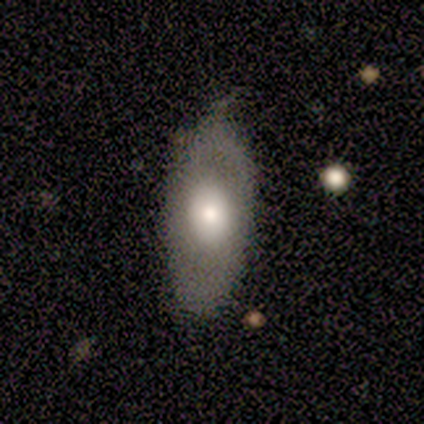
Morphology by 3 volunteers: type=featured or disk (100%); edge-on=no (67%); bar=no (100%); spiral arms=no (100%); bulge=dominant (50%, tied with large); merging=none (100%).